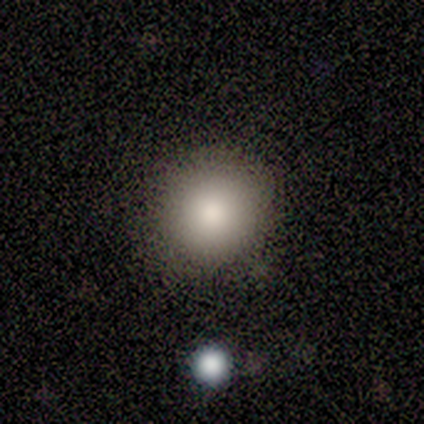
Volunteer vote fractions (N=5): smooth 100%, featured or disk 0%, star or artifact 0%. Down the decision tree: how rounded — round (80%); merging — none (80%).